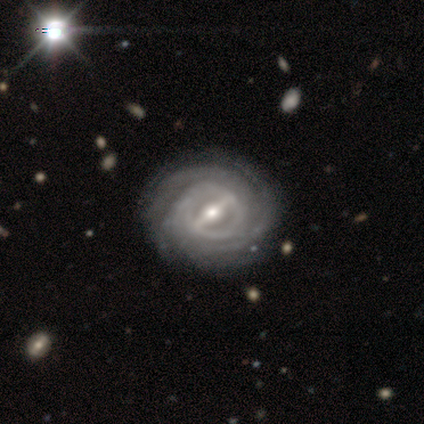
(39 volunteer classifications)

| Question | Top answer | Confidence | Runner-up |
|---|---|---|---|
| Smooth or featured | featured or disk | 97% | star or artifact (3%) |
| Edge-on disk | no | 97% | yes (3%) |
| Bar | strong | 81% | weak (14%) |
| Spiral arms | yes | 100% | — |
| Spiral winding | tight | 89% | medium (8%) |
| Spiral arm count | can't tell | 30% | 4 (27%) |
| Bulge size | moderate | 62% | small (27%) |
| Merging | none | 50% | minor disturbance (11%) |